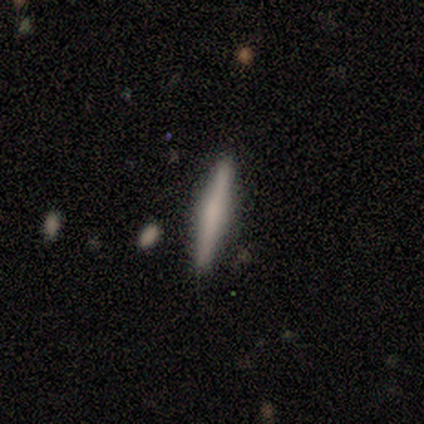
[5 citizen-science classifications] featured or disk 80%, smooth 20%, star or artifact 0%. Down the decision tree: edge-on disk — yes (100%); edge-on bulge — rounded (50%); merging — none (80%).